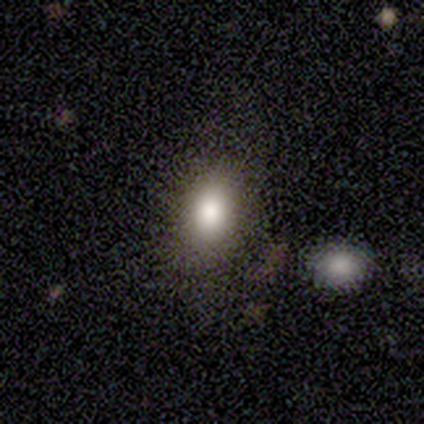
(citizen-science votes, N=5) Overall: smooth (100%). How rounded: in between (100%). Merging: none (80%).